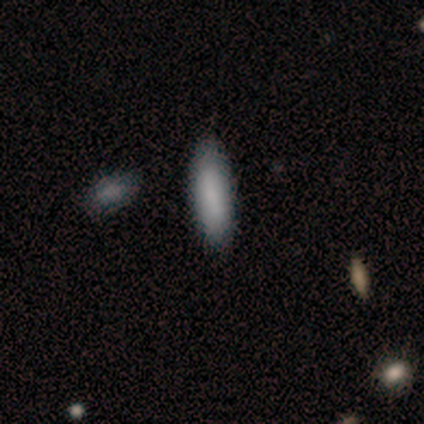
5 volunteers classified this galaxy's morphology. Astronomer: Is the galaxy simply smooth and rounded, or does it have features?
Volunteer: smooth — 80%.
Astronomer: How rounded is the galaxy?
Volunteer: cigar-shaped — 100%.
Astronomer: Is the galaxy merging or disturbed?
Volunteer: none — 100%.